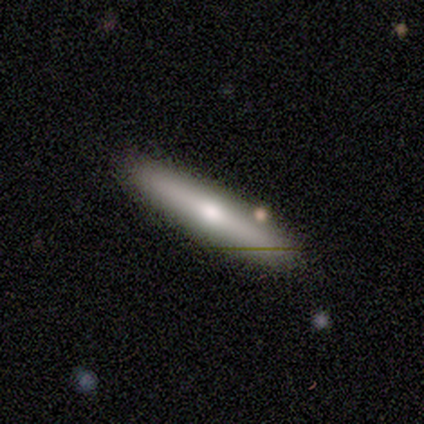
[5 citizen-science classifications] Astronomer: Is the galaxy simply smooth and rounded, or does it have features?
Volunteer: smooth — 60% (runner-up: featured or disk, 40%).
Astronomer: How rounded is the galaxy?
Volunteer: cigar-shaped — 100%.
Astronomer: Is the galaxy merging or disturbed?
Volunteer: none — 80%.